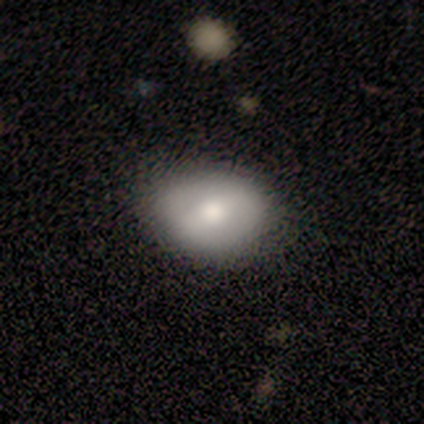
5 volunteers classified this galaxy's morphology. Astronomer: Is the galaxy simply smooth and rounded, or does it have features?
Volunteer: smooth — 80%.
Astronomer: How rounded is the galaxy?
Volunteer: in between — 75%.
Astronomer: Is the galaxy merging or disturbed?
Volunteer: none — 60% (runner-up: minor disturbance, 40%).